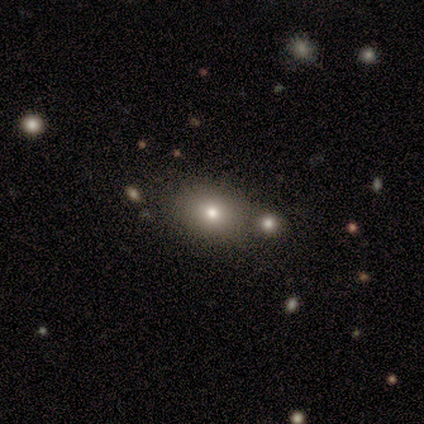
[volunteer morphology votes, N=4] Smooth or featured?
  - smooth: 50% * (tied)
  - featured or disk: 50% * (tied)
  - star or artifact: 0%
How rounded?
  - in between: 100% *
  - round: 0%
  - cigar-shaped: 0%
Merging?
  - none: 75% *
  - major disturbance: 25%
  - minor disturbance: 0%
  - merger: 0%